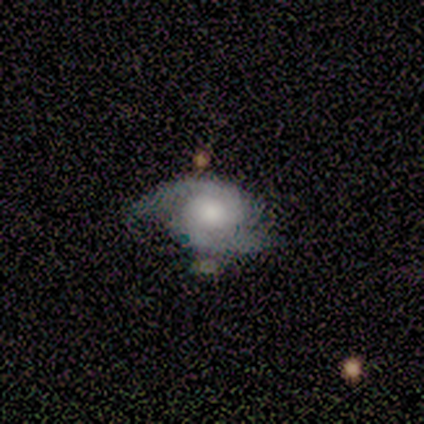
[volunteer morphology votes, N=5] Smooth or featured? featured or disk (80%)
Edge-on disk? no (100%)
Bar? no (75%)
Spiral arms? yes (100%)
Spiral winding? medium (75%)
Spiral arm count? 2 (100%)
Bulge size? large (75%)
Merging? none (60%)